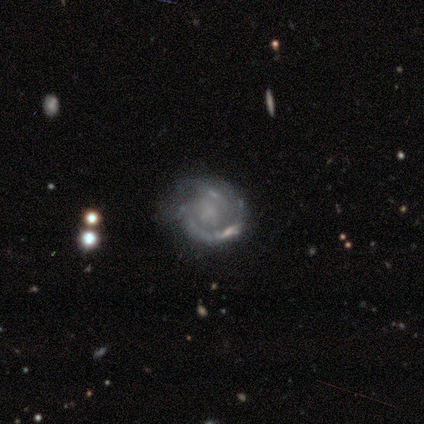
A featured or disk galaxy (80%) with no bar (100%), 2 (75%) tight (50%, tied with medium) spiral arms (100%) and no central bulge (100%). Merging: minor disturbance (50%).